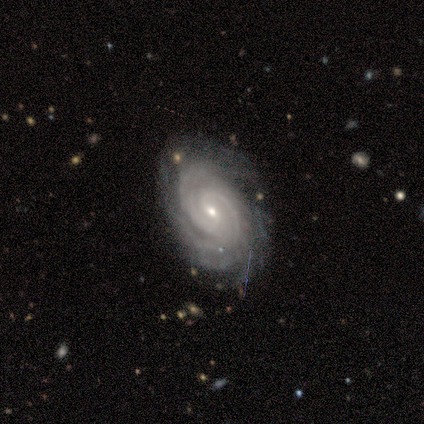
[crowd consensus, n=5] Q: Smooth or featured?
A: featured or disk (100%)
Q: Edge-on disk?
A: no (100%)
Q: Bar?
A: weak (60%); runner-up: strong (20%)
Q: Spiral arms?
A: yes (100%)
Q: Spiral winding?
A: tight (60%); runner-up: medium (40%)
Q: Spiral arm count?
A: more than 4 (60%); runner-up: 2 (20%)
Q: Bulge size?
A: small (60%); runner-up: moderate (40%)
Q: Merging?
A: none (60%); runner-up: minor disturbance (40%)